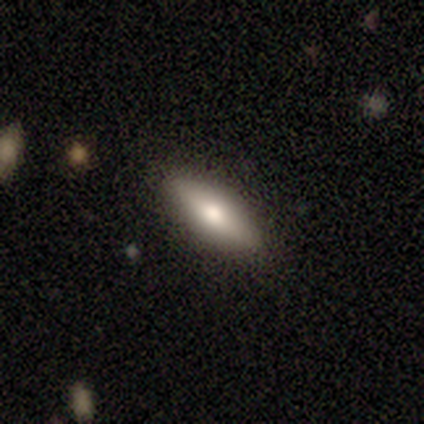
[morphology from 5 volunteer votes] Smooth or featured?
  - featured or disk: 60% *
  - smooth: 40%
  - star or artifact: 0%
Edge-on disk?
  - yes: 100% *
  - no: 0%
Edge-on bulge?
  - rounded: 67% *
  - none: 33%
  - boxy: 0%
Merging?
  - none: 80% *
  - minor disturbance: 20%
  - major disturbance: 0%
  - merger: 0%